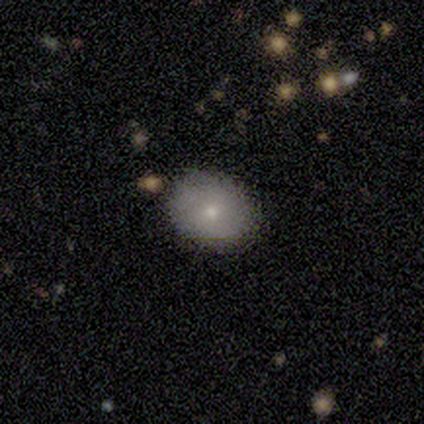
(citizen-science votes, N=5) This is marginally a smooth galaxy (40%, tied with featured or disk). How rounded: possibly round (50%, tied with in between). Merging: clearly none (100%).